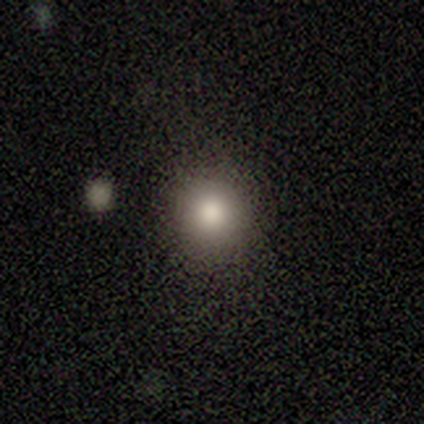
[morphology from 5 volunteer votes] smooth-or-featured: smooth: 60% | featured or disk: 20% | star or artifact: 20%
  how-rounded: round: 67% | in between: 33% | cigar-shaped: 0%
  merging: none: 75% | merger: 25% | minor disturbance: 0% | major disturbance: 0%